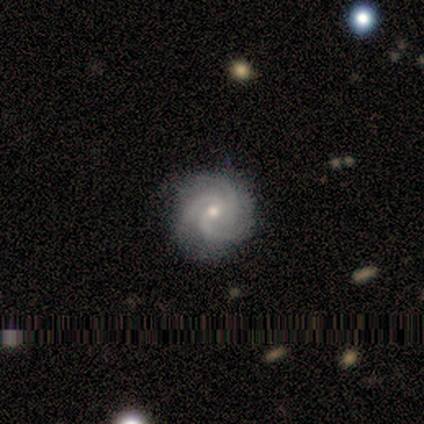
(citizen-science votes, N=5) featured or disk 100%, smooth 0%, star or artifact 0%. Down the decision tree: edge-on disk — no (100%); bar — no (100%); spiral arms — yes (100%); spiral arm count — 3 (60%); spiral winding — tight (60%); bulge size — small (100%); merging — none (100%).